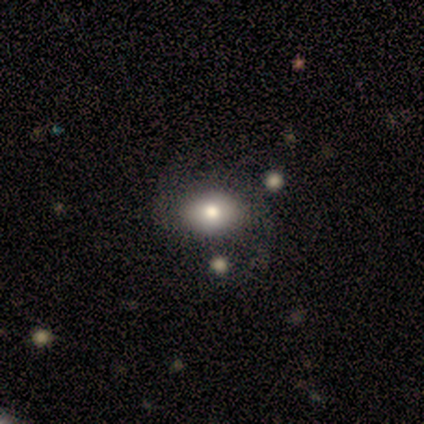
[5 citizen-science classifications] Smooth or featured: smooth — 40% (tied with featured or disk — 40%)
How rounded: round — 50% (tied with in between — 50%)
Merging: none — 50% (minor disturbance — 25%)